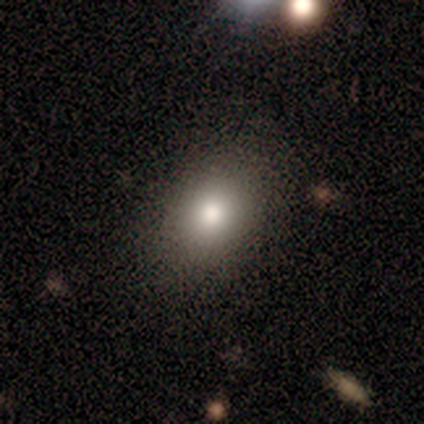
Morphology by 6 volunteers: Smooth or featured? 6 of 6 (100%) said smooth. How rounded? 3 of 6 (50%, tied with in between) said round. Merging? 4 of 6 (67%) said none.